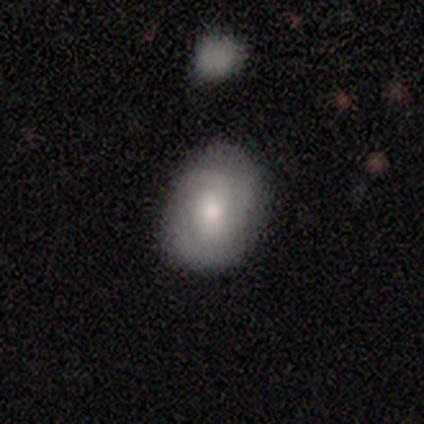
Q: Smooth or featured?
A: featured or disk (60%); runner-up: smooth (30%)
Q: Edge-on disk?
A: no (100%)
Q: Bar?
A: no (67%); runner-up: strong (17%)
Q: Spiral arms?
A: yes (100%)
Q: Spiral winding?
A: tight (67%); runner-up: medium (33%)
Q: Spiral arm count?
A: 2 (50%); runner-up: can't tell (33%)
Q: Bulge size?
A: moderate (83%); runner-up: large (17%)
Q: Merging?
A: none (89%); runner-up: minor disturbance (11%)